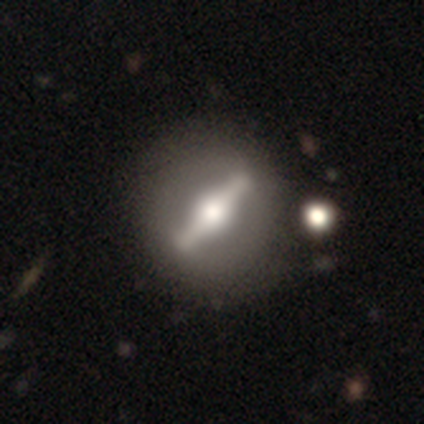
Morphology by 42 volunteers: smooth-or-featured: featured or disk: 81% | smooth: 19% | star or artifact: 0%
  disk-edge-on: no: 62% | yes: 38%
    bar: strong: 100% | weak: 0% | no: 0%
    has-spiral-arms: no: 90% | yes: 10%
    bulge-size: large: 52% | moderate: 48% | dominant: 0% | small: 0% | none: 0%
  merging: none: 50% | minor disturbance: 10% | major disturbance: 7% | merger: 7%